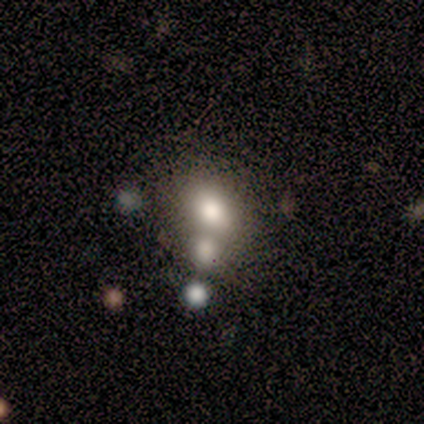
A smooth galaxy with no disk features (100%) that is in between round and cigar-shaped (62%).

Vote fractions:
- Smooth or featured? smooth: 100% / featured or disk: 0% / star or artifact: 0%
- How rounded? in between: 62% / round: 38% / cigar-shaped: 0%
- Merging? merger: 75% / none: 25% / minor disturbance: 0% / major disturbance: 0%